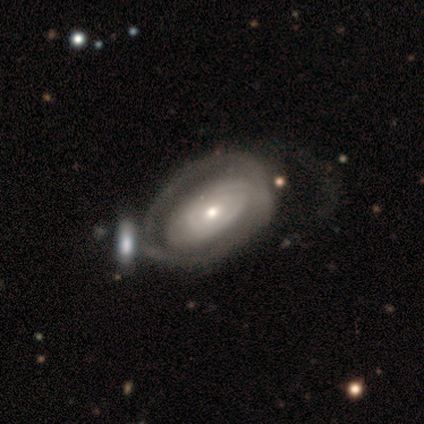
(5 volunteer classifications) Volunteers were most divided on "smooth or featured" (2-way tie): featured or disk: 40%, star or artifact: 40%, smooth: 20%; "spiral arms" (2-way tie): yes: 50%, no: 50%; "bulge size" (2-way tie): moderate: 50%, small: 50%, dominant: 0%, large: 0%, none: 0%. More confident: edge-on disk — no (100%); bar — no (100%); spiral winding — tight (100%); spiral arm count — can't tell (100%); merging — minor disturbance (67%).